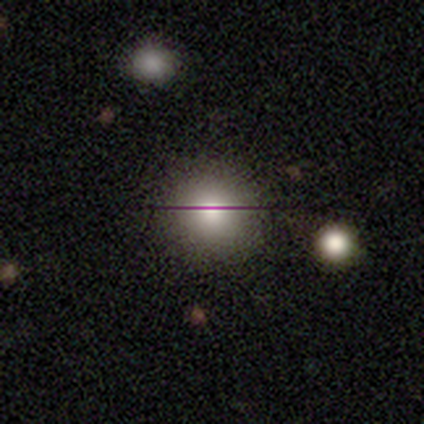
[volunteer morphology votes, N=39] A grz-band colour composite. It shows a smooth galaxy with no disk features (82%) that is round (91%). Merging: none (61%).